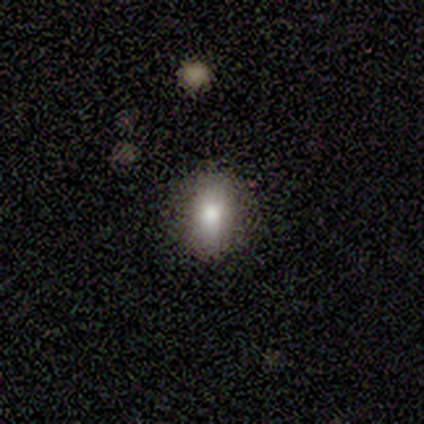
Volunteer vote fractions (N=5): smooth 100%, featured or disk 0%, star or artifact 0%. Down the decision tree: how rounded — in between (80%); merging — none (100%).